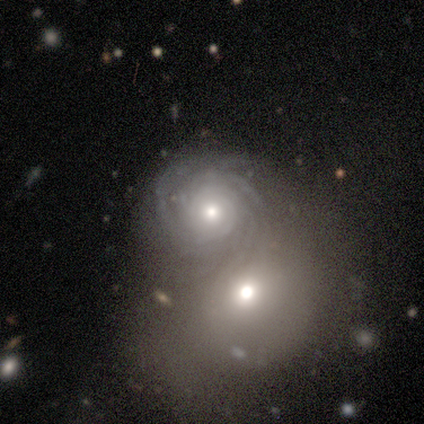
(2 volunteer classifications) Morphology: type=featured or disk (100%); edge-on=no (100%); bar=no (100%); spiral arms=yes (100%); winding=tight (100%); arm count=more than 4 (100%); bulge=moderate (100%); merging=merger (100%).